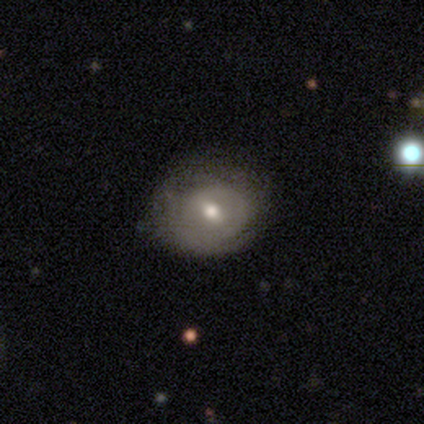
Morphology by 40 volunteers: Smooth or featured: featured or disk — 55% (smooth — 40%)
Edge-on disk: no — 95% (yes — 5%)
Bar: weak — 62% (strong — 24%)
Spiral arms: yes — 52% (no — 48%)
Spiral winding: tight — 82% (medium — 18%)
Spiral arm count: can't tell — 73% (1 — 27%)
Bulge size: moderate — 81% (small — 14%)
Merging: none — 47% (minor disturbance — 34%)